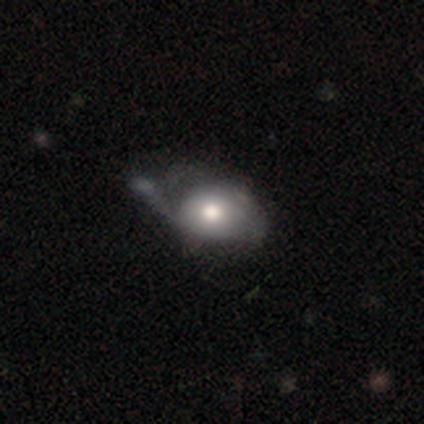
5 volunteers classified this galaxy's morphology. Q: Smooth or featured?
A: smooth (60%); runner-up: featured or disk (40%)
Q: How rounded?
A: in between (67%); runner-up: round (33%)
Q: Merging?
A: major disturbance (60%); runner-up: none (20%)